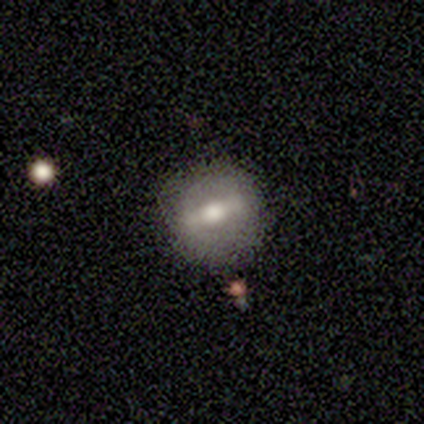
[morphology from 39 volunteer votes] Smooth or featured? 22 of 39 (56%) said featured or disk. Edge-on disk? 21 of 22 (95%) said no. Bar? 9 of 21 (43%) said weak. Spiral arms? 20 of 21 (95%) said no. Bulge size? 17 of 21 (81%) said moderate. Merging? 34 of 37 (92%) said none.